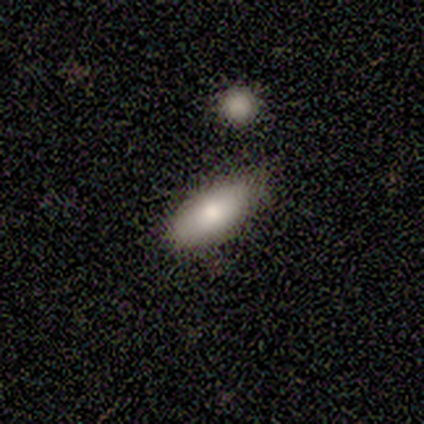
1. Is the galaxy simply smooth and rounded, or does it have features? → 60% smooth, 40% star or artifact, 0% featured or disk.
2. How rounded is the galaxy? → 67% in between, 33% cigar-shaped, 0% round.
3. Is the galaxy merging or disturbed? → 67% none, 33% major disturbance, 0% minor disturbance, 0% merger.